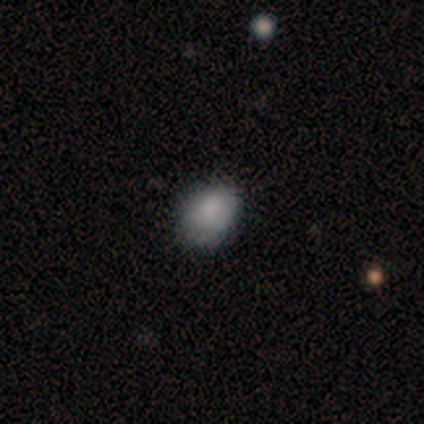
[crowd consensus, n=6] Smooth or featured? 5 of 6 (83%) said smooth. How rounded? 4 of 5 (80%) said in between. Merging? 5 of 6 (83%) said none.